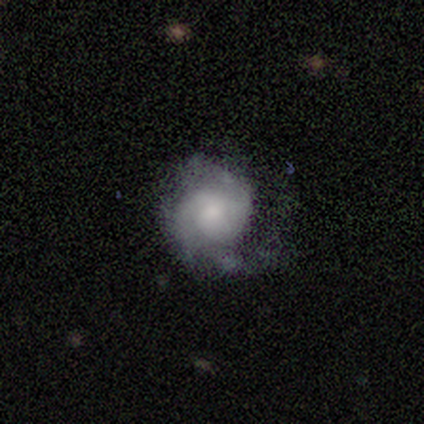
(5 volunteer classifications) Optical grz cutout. It shows a smooth galaxy with no disk features (60%) that is round (100%). Merging: minor disturbance (50%).